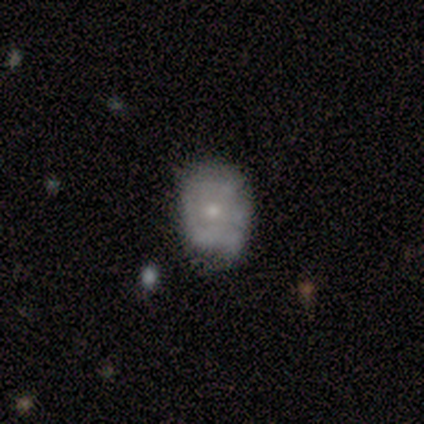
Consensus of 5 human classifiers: Smooth or featured: featured or disk — 80% (smooth — 20%)
Edge-on disk: no — 100%
Bar: no — 100%
Spiral arms: yes — 75% (no — 25%)
Spiral winding: tight — 67% (medium — 33%)
Spiral arm count: can't tell — 67% (2 — 33%)
Bulge size: moderate — 75% (small — 25%)
Merging: minor disturbance — 60% (none — 40%)